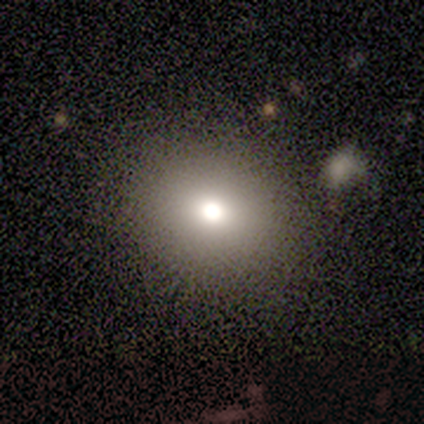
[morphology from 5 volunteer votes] Q: Smooth or featured?
A: smooth (60%); runner-up: featured or disk (20%)
Q: How rounded?
A: round (67%); runner-up: in between (33%)
Q: Merging?
A: none (50%); tied with: major disturbance (50%)